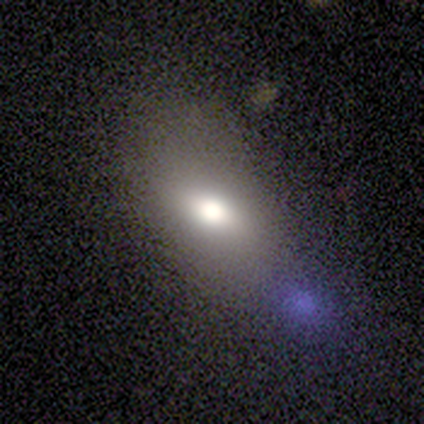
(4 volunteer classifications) Overall: smooth (50%; featured or disk 25%). How rounded: in between (100%). Merging: minor disturbance (67%; none 33%).